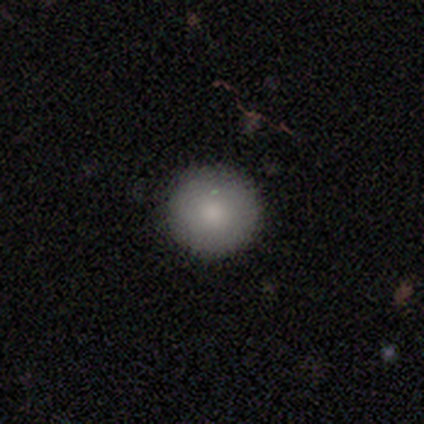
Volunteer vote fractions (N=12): Smooth or featured?
  - smooth: 75% *
  - featured or disk: 25%
  - star or artifact: 0%
How rounded?
  - round: 100% *
  - in between: 0%
  - cigar-shaped: 0%
Merging?
  - none: 100% *
  - minor disturbance: 0%
  - major disturbance: 0%
  - merger: 0%